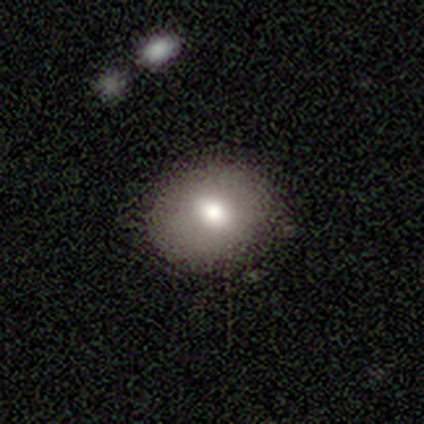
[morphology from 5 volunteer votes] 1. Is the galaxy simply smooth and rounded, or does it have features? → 100% smooth, 0% featured or disk, 0% star or artifact.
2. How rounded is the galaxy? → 60% in between, 40% round, 0% cigar-shaped.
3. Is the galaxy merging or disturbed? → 100% none, 0% minor disturbance, 0% major disturbance, 0% merger.